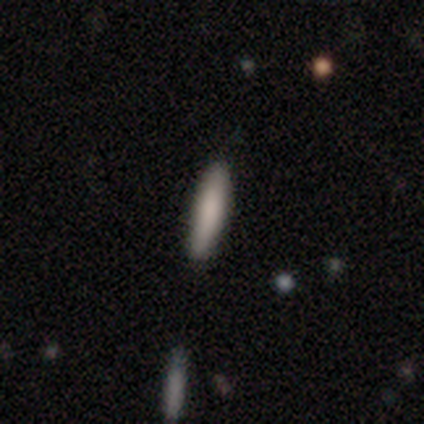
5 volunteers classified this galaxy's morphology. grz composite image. It shows a smooth galaxy with no disk features (100%) that is cigar-shaped (80%). Merging: none (100%).